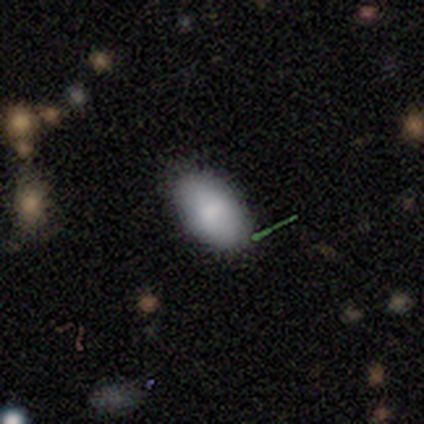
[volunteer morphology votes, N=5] Smooth or featured: smooth — 80% (featured or disk — 20%)
How rounded: in between — 100%
Merging: none — 80% (minor disturbance — 20%)